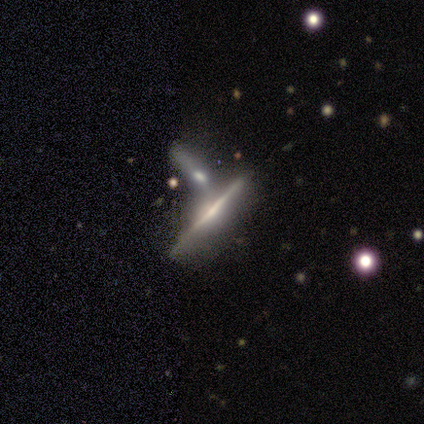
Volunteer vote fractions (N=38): smooth_or_featured: featured or disk (p=0.66) [alt: smooth p=0.26]
disk_edge_on: yes (p=1.00)
edge_on_bulge: none (p=0.52) [alt: rounded p=0.32]
merging: merger (p=0.34) [alt: none p=0.31]